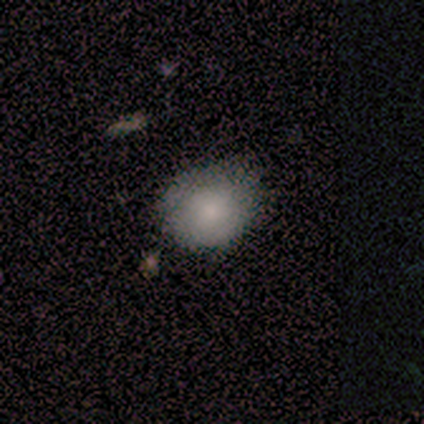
Smooth or featured: featured or disk — 60% (smooth — 40%)
Edge-on disk: no — 100%
Bar: no — 67% (strong — 33%)
Spiral arms: yes — 67% (no — 33%)
Spiral winding: tight — 50% (tied with medium — 50%)
Spiral arm count: 2 — 50% (tied with can't tell — 50%)
Bulge size: large — 33% (tied with moderate — 33%; small — 33%)
Merging: none — 80% (minor disturbance — 20%)